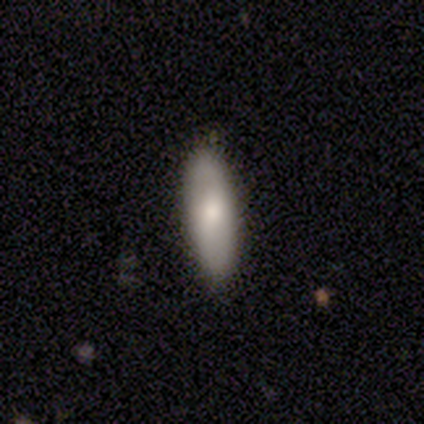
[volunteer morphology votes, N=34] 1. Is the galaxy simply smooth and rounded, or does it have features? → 74% smooth, 21% featured or disk, 6% star or artifact.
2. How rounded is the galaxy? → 48% in between (tied), 48% cigar-shaped (tied), 4% round.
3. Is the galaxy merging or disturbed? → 81% none, 16% minor disturbance, 3% major disturbance, 0% merger.